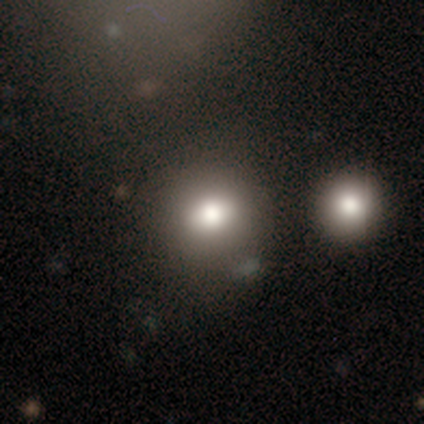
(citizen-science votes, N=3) smooth 67%, star or artifact 33%, featured or disk 0%. Down the decision tree: how rounded — round (100%); merging — none (100%).